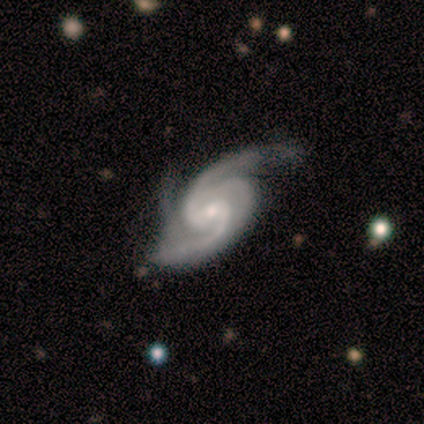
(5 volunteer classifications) Morphology: type=featured or disk (100%); edge-on=no (100%); bar=weak (80%); spiral arms=yes (100%); winding=medium (80%); arm count=2 (80%); bulge=small (80%); merging=none (80%).